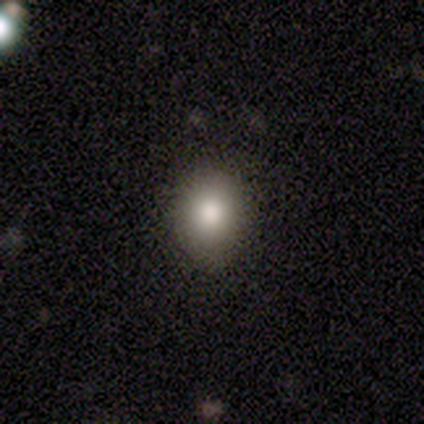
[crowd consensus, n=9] Smooth or featured? smooth (78%)
How rounded? in between (57%)
Merging? none (88%)